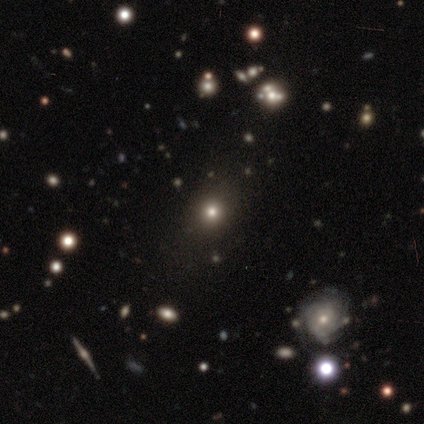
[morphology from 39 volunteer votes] smooth_or_featured: smooth (p=0.72) [alt: star or artifact p=0.23]
how_rounded: round (p=0.68) [alt: in between p=0.32]
merging: none (p=0.83) [alt: minor disturbance p=0.13]